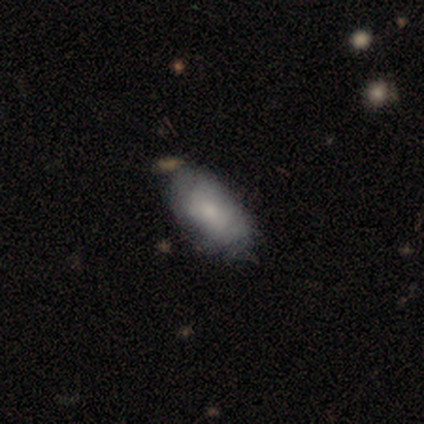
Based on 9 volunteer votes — This appears to be a smooth galaxy with no disk features (67%) that is in between round and cigar-shaped (100%). Merging: none (75%).